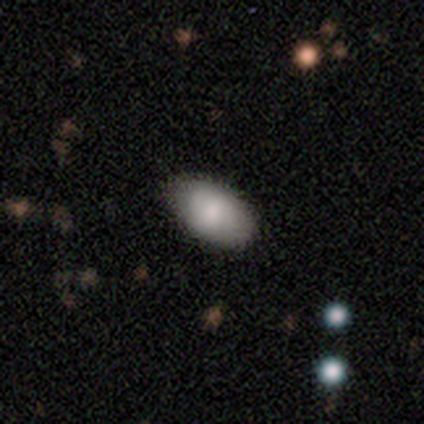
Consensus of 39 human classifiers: smooth-or-featured: smooth: 77% | featured or disk: 21% | star or artifact: 3%
  how-rounded: in between: 97% | round: 3% | cigar-shaped: 0%
  merging: none: 92% | major disturbance: 5% | minor disturbance: 3% | merger: 0%